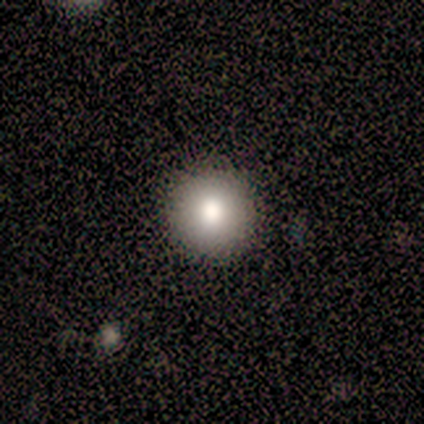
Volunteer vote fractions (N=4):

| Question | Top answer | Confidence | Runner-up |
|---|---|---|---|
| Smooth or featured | smooth | 100% | — |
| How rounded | round | 100% | — |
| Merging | none | 100% | — |